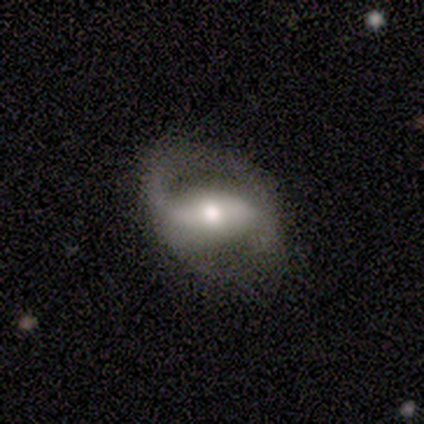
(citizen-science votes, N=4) A featured or disk galaxy (100%) with a strong bar (75%), 2 (100%) medium (100%) spiral arms (50%, tied with no) and a moderate central bulge (75%).

Vote fractions:
- Smooth or featured? featured or disk: 100% / smooth: 0% / star or artifact: 0%
- Edge-on disk? no: 100% / yes: 0%
- Bar? strong: 75% / no: 25% / weak: 0%
- Spiral arms? yes: 50% (tied) / no: 50% (tied)
- Spiral winding? medium: 100% / tight: 0% / loose: 0%
- Spiral arm count? 2: 100% / 1: 0% / 3: 0% / 4: 0% / more than 4: 0% / can't tell: 0%
- Bulge size? moderate: 75% / small: 25% / dominant: 0% / large: 0% / none: 0%
- Merging? none: 75% / minor disturbance: 25% / major disturbance: 0% / merger: 0%